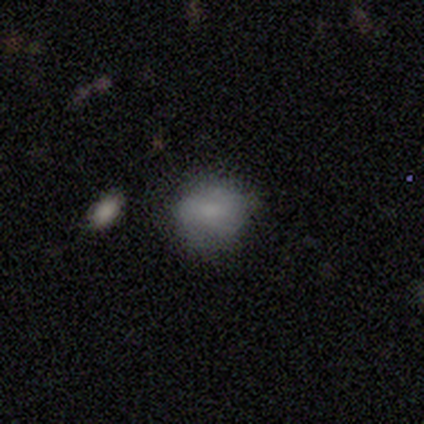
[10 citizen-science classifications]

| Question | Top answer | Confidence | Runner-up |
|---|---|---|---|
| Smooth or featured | smooth | 80% | featured or disk (20%) |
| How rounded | in between | 75% | round (25%) |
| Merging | none | 80% | minor disturbance (20%) |